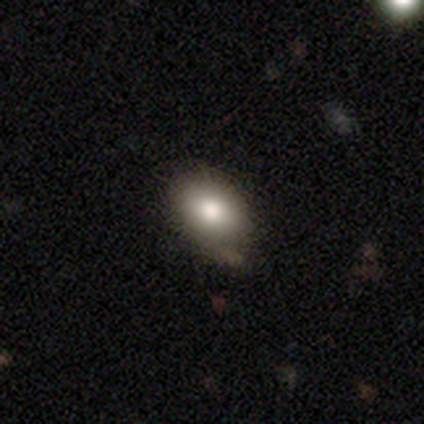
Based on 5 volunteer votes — Smooth or featured? 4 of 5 (80%) said smooth. How rounded? 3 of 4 (75%) said in between. Merging? 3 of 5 (60%) said none.